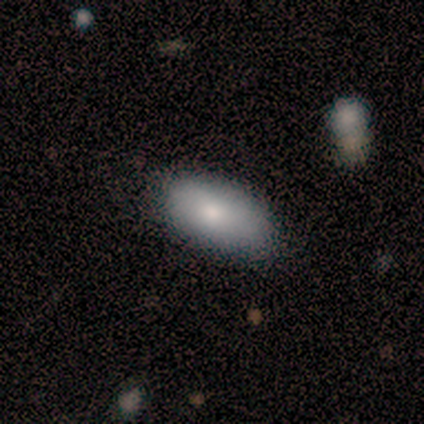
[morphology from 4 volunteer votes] Smooth or featured? 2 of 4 (50%, tied with star or artifact) said smooth. How rounded? 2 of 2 (100%) said in between. Merging? 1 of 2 (50%, tied with major disturbance) said none.